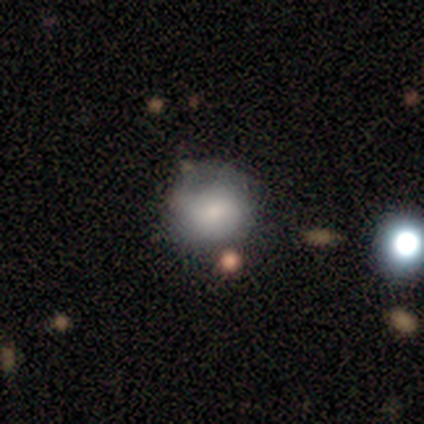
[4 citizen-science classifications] Smooth or featured?
  - smooth: 100% *
  - featured or disk: 0%
  - star or artifact: 0%
How rounded?
  - round: 100% *
  - in between: 0%
  - cigar-shaped: 0%
Merging?
  - none: 100% *
  - minor disturbance: 0%
  - major disturbance: 0%
  - merger: 0%